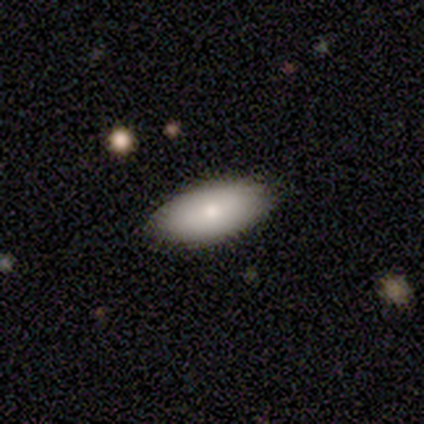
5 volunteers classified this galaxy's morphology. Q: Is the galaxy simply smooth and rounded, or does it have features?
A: smooth — 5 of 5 (100%).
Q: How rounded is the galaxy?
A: in between — 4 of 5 (80%).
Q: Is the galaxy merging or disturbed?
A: none — 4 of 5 (80%).